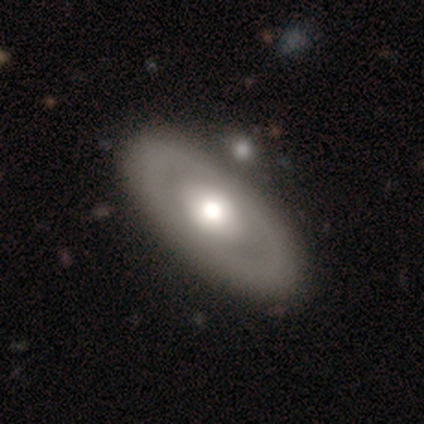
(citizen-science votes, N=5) Q: Smooth or featured?
A: featured or disk (60%); runner-up: smooth (40%)
Q: Edge-on disk?
A: no (100%)
Q: Bar?
A: no (100%)
Q: Spiral arms?
A: no (100%)
Q: Bulge size?
A: moderate (67%); runner-up: large (33%)
Q: Merging?
A: none (80%); runner-up: minor disturbance (20%)